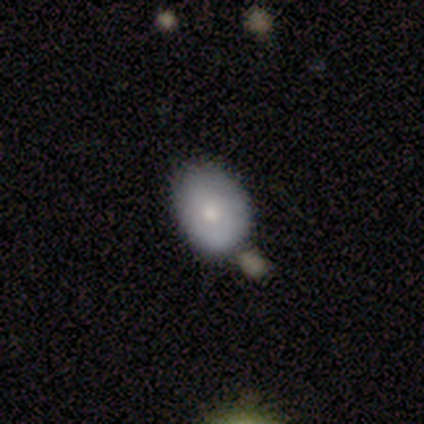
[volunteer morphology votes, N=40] Smooth or featured? 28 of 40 (70%) said smooth. How rounded? 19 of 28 (68%) said in between. Merging? 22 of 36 (61%) said none.